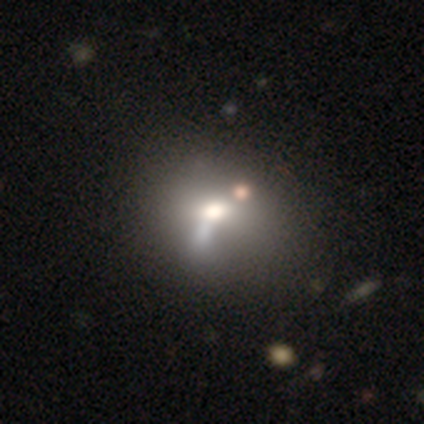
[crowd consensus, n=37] smooth 59%, featured or disk 24%, star or artifact 16%. Down the decision tree: how rounded — round (50%, tied with in between); merging — merger (29%).